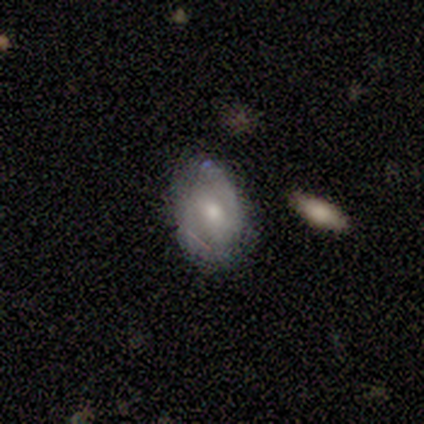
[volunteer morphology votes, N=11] Overall: featured or disk (55%; smooth 36%). Edge-on disk: no (100%). Bar: no (67%; weak 33%). Spiral arms: yes (83%). Spiral arm count: 2 (60%; can't tell 40%). Spiral winding: medium (60%; tight 40%). Bulge size: moderate (50%, tied with small). Merging: none (80%).